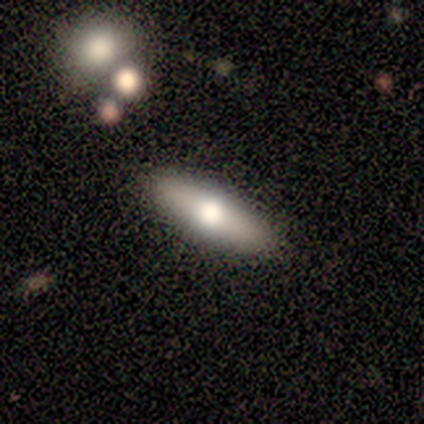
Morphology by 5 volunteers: Volunteers were most divided on "how rounded": in between: 75%, cigar-shaped: 25%, round: 0%. More confident: smooth or featured — smooth (80%); merging — none (80%).